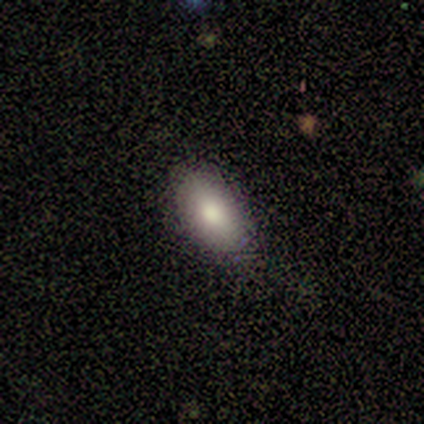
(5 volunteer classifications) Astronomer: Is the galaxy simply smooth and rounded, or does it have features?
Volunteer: smooth — 60%.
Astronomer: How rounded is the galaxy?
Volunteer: in between — 67%.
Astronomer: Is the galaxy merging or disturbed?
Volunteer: none — 100%.